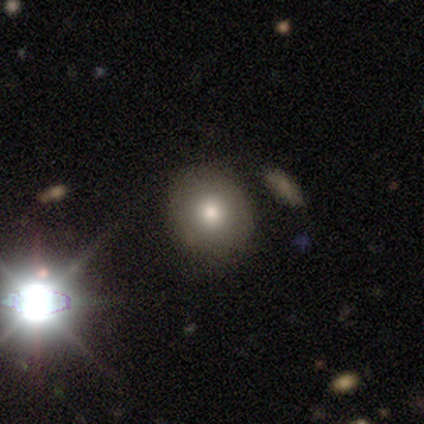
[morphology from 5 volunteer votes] smooth-or-featured: smooth: 60% | star or artifact: 40% | featured or disk: 0%
  how-rounded: round: 100% | in between: 0% | cigar-shaped: 0%
  merging: none: 67% | minor disturbance: 33% | major disturbance: 0% | merger: 0%